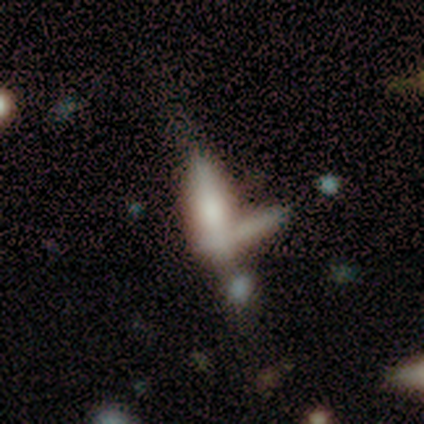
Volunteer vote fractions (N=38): This is possibly a featured or disk galaxy (47%). It is clearly viewed edge-on (83%). Edge-on bulge: likely rounded (60%). Merging: marginally none (35%, tied with merger).